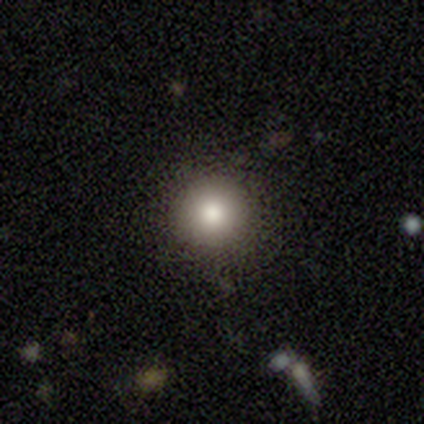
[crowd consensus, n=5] Q: Smooth or featured?
A: smooth (80%); runner-up: star or artifact (20%)
Q: How rounded?
A: round (100%)
Q: Merging?
A: none (100%)